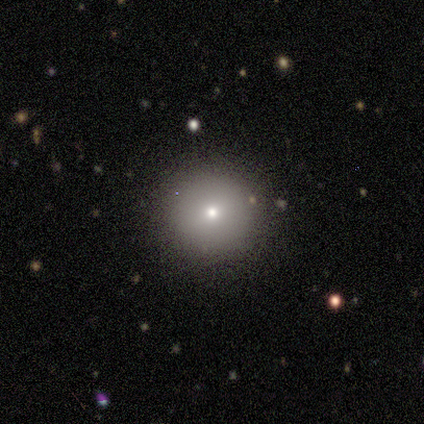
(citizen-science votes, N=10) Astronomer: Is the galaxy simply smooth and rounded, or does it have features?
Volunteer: smooth — 60% (runner-up: featured or disk, 40%).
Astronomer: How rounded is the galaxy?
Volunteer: round — 100%.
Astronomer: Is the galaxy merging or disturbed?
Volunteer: none — 90%.